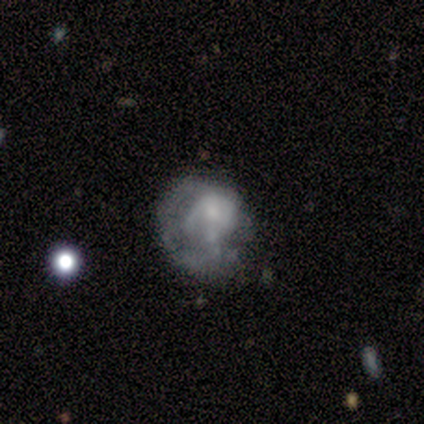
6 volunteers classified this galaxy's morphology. Volunteers were most divided on "merging": major disturbance: 50%, minor disturbance: 33%, none: 17%, merger: 0%. More confident: edge-on disk — no (100%); bar — no (100%); spiral arms — no (75%); smooth or featured — featured or disk (67%); bulge size — small (50%).